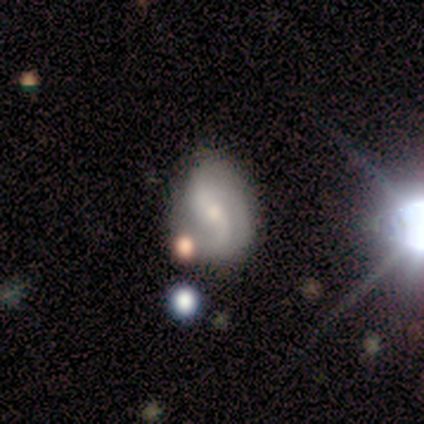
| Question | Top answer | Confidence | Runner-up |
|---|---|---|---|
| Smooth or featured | featured or disk | 60% | star or artifact (40%) |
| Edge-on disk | no | 100% | — |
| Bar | strong | 67% | weak (33%) |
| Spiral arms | yes | 100% | — |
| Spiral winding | medium | 67% | loose (33%) |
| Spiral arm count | can't tell | 67% | 2 (33%) |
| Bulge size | small | 67% | moderate (33%) |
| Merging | none | 33% | tied: minor disturbance (33%), merger (33%) |